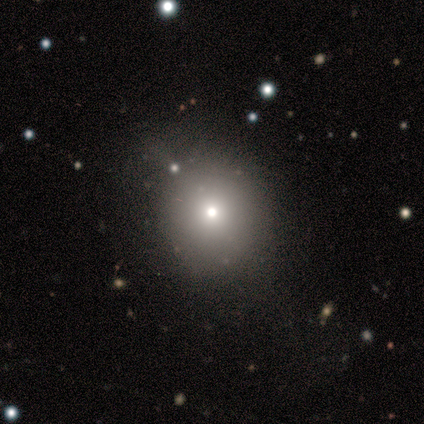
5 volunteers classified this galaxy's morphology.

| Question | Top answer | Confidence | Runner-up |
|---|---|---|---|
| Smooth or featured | smooth | 100% | — |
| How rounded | round | 100% | — |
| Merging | none | 80% | minor disturbance (20%) |